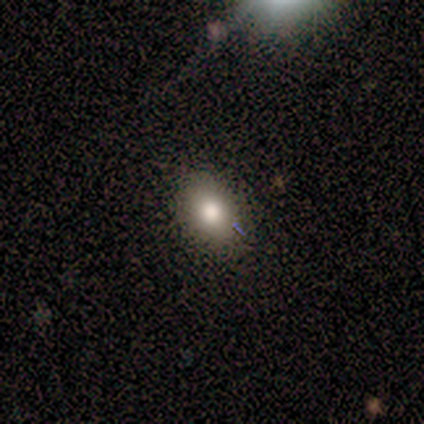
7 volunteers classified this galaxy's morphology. Smooth or featured?
  - smooth: 86% *
  - star or artifact: 14%
  - featured or disk: 0%
How rounded?
  - in between: 67% *
  - round: 33%
  - cigar-shaped: 0%
Merging?
  - none: 83% *
  - minor disturbance: 17%
  - major disturbance: 0%
  - merger: 0%